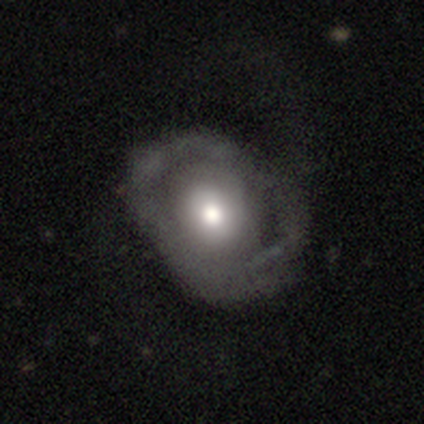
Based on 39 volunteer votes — This is possibly a featured or disk galaxy (49%). It is clearly not viewed edge-on (100%). Bar: clearly no (95%). Spiral arm pattern: possibly no (53%). Central bulge: likely moderate (63%). Merging: marginally none (41%).